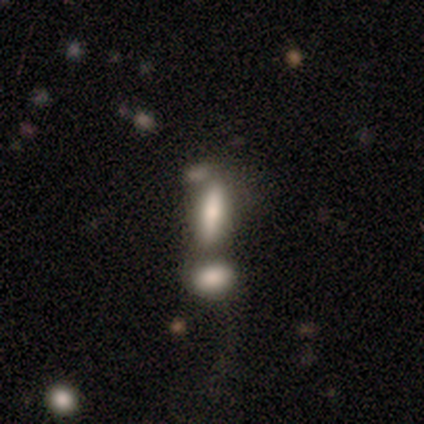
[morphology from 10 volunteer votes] Smooth or featured: smooth — 70% (featured or disk — 20%)
How rounded: cigar-shaped — 71% (in between — 29%)
Merging: merger — 56% (none — 33%)